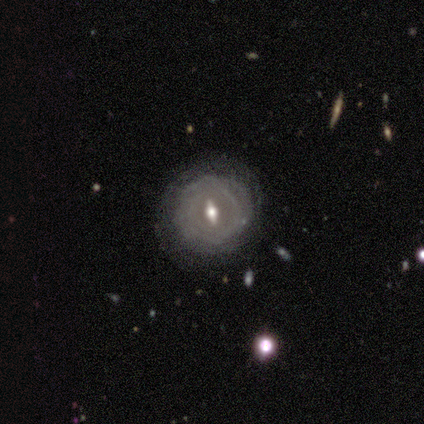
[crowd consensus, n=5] Smooth or featured? 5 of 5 (100%) said featured or disk. Edge-on disk? 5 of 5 (100%) said no. Bar? 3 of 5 (60%) said weak. Spiral arms? 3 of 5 (60%) said no. Bulge size? 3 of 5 (60%) said moderate. Merging? 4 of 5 (80%) said none.